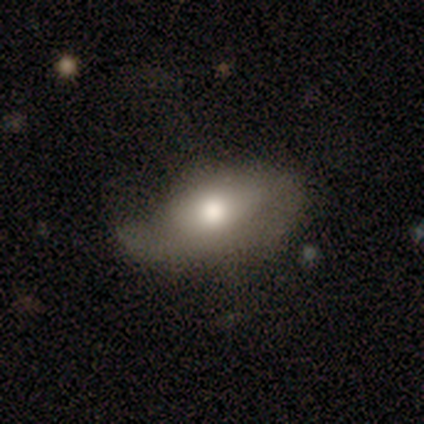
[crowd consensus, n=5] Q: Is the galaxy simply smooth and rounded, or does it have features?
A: smooth — 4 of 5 (80%).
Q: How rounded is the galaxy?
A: in between — 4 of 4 (100%).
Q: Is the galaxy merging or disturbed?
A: minor disturbance — 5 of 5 (100%).